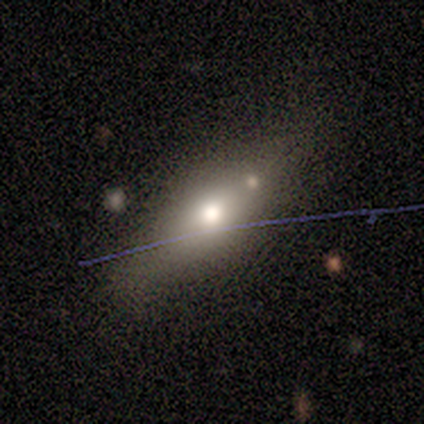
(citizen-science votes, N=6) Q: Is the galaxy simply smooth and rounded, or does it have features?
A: smooth — 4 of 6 (67%).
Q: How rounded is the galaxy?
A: in between — 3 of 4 (75%).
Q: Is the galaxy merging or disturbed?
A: minor disturbance — 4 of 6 (67%).